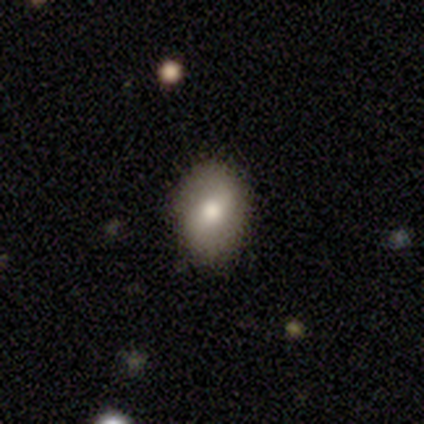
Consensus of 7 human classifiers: smooth-or-featured: smooth: 71% | featured or disk: 29% | star or artifact: 0%
  how-rounded: in between: 60% | round: 40% | cigar-shaped: 0%
  merging: none: 86% | major disturbance: 14% | minor disturbance: 0% | merger: 0%